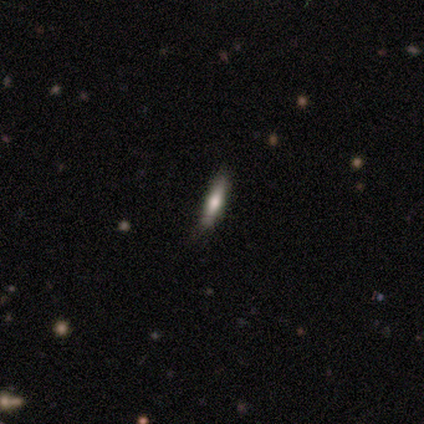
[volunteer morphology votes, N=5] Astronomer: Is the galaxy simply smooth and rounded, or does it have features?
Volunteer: smooth — 40%, tied with star or artifact at 40%.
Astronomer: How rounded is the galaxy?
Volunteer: in between — 50%, tied with cigar-shaped at 50%.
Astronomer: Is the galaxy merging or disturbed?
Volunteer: none — 100%.